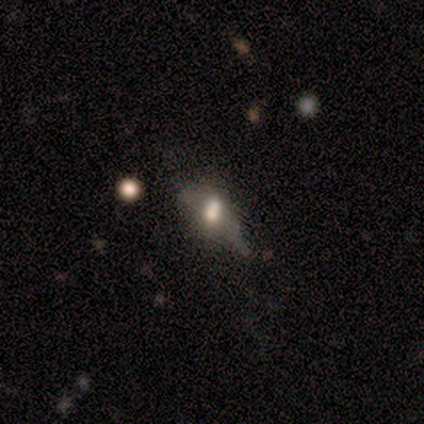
Smooth or featured? featured or disk (60%)
Edge-on disk? no (67%)
Bar? weak (100%)
Spiral arms? yes (50%, tied with no)
Spiral winding? medium (100%)
Spiral arm count? 3 (100%)
Bulge size? large (50%, tied with moderate)
Merging? minor disturbance (60%)